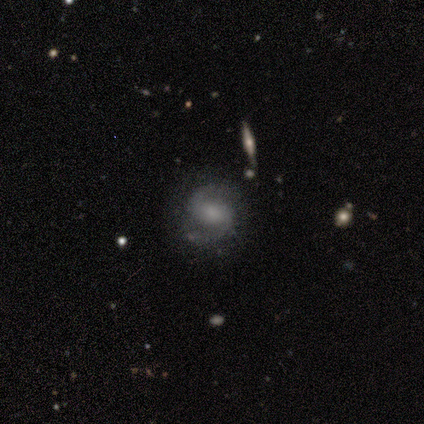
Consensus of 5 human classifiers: Smooth or featured: featured or disk — 100%
Edge-on disk: no — 100%
Bar: weak — 40% (tied with no — 40%)
Spiral arms: yes — 100%
Spiral winding: medium — 80% (loose — 20%)
Spiral arm count: 2 — 80% (can't tell — 20%)
Bulge size: moderate — 60% (large — 40%)
Merging: none — 100%